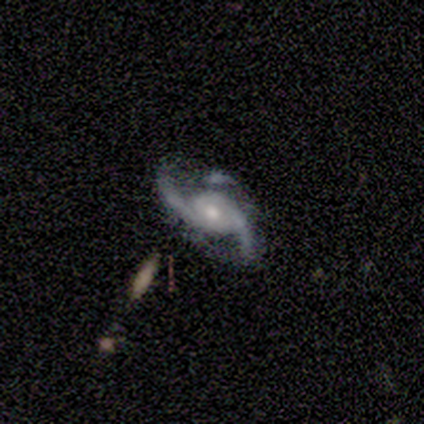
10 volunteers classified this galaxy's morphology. Smooth or featured: featured or disk — 100%
Edge-on disk: no — 100%
Bar: no — 70% (weak — 20%)
Spiral arms: yes — 100%
Spiral winding: medium — 50% (tied with loose — 50%)
Spiral arm count: 2 — 100%
Bulge size: moderate — 60% (large — 20%)
Merging: none — 60% (major disturbance — 20%)